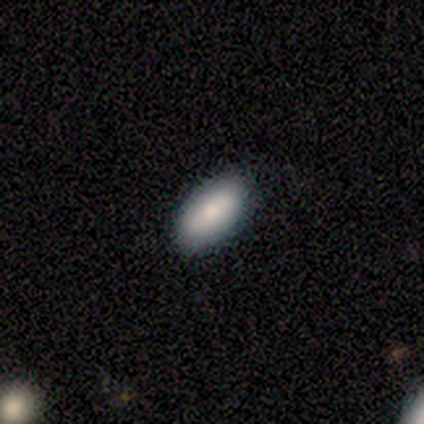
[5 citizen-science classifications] Smooth or featured? smooth (100%)
How rounded? in between (100%)
Merging? none (100%)